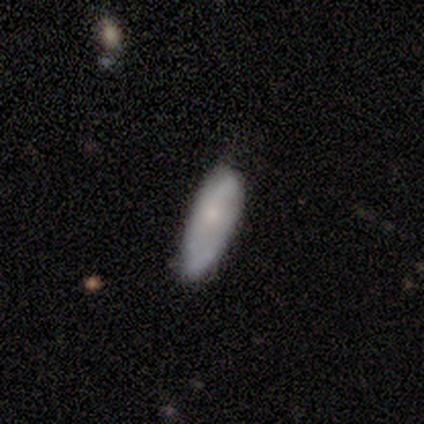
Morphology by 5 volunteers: type=smooth (40%, tied with featured or disk); roundness=in between (50%, tied with cigar-shaped); merging=none (50%).